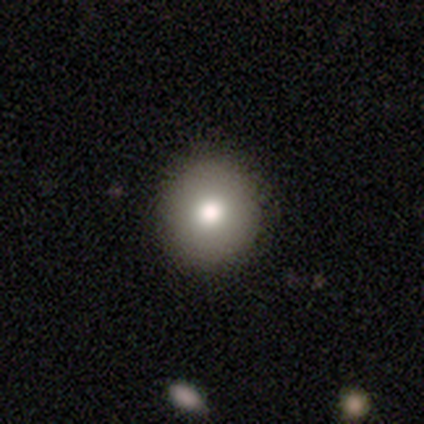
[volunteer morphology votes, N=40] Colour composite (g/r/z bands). It shows a smooth galaxy with no disk features (85%) that is round (88%). Merging: none (70%).